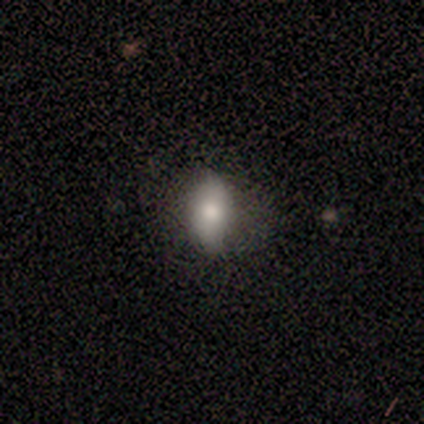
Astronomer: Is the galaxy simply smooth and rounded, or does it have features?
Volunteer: smooth — 80%.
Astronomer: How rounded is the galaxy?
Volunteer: in between — 50%.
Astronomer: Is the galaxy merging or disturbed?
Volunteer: none — 60% (runner-up: minor disturbance, 40%).